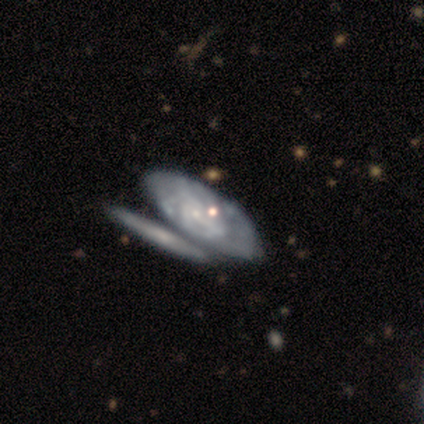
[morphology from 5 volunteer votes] A featured or disk galaxy (60%) with no bar (100%), medium (100%) spiral arms (50%, tied with no) and a small central bulge (50%, tied with none). Merging: merger (80%).